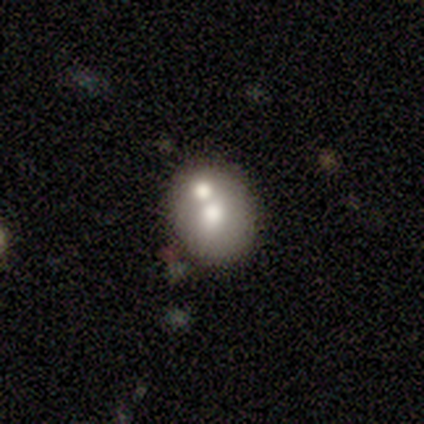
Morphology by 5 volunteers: Smooth or featured? 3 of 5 (60%) said smooth. How rounded? 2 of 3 (67%) said in between. Merging? 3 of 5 (60%) said merger.